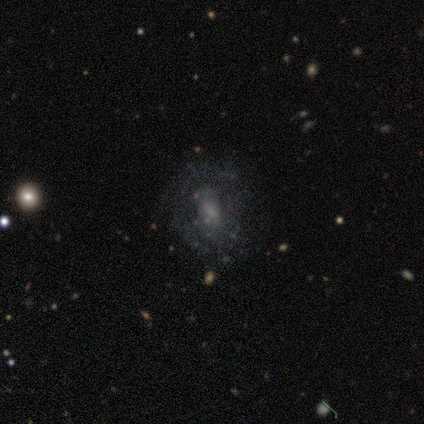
Smooth or featured: featured or disk — 59% (smooth — 30%)
Edge-on disk: no — 100%
Bar: no — 68% (weak — 27%)
Spiral arms: no — 55% (yes — 45%)
Bulge size: moderate — 36% (small — 27%)
Merging: none — 58% (minor disturbance — 18%)